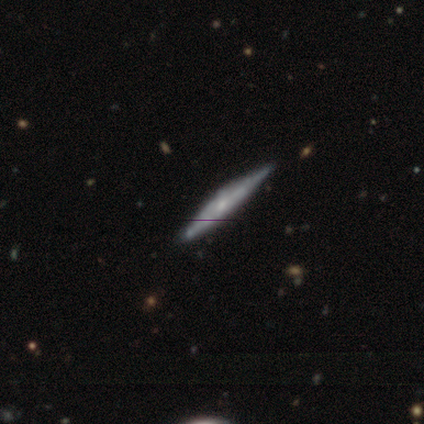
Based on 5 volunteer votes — Smooth or featured? 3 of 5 (60%) said featured or disk. Edge-on disk? 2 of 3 (67%) said yes. Edge-on bulge? 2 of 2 (100%) said rounded. Merging? 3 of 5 (60%) said none.